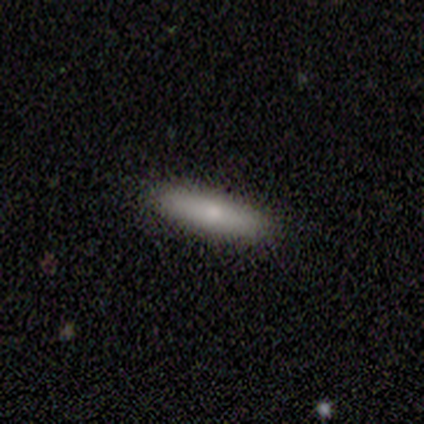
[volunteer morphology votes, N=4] Overall: smooth (75%). How rounded: cigar-shaped (100%). Merging: none (75%).